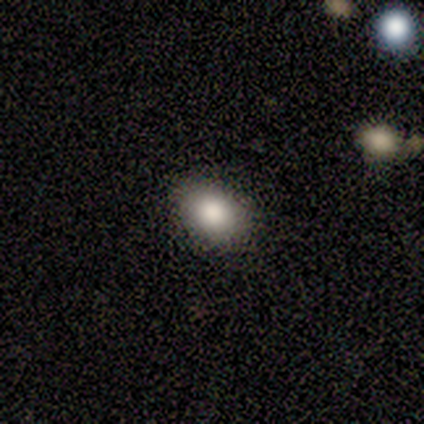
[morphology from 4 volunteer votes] Q: Smooth or featured?
A: smooth (75%); runner-up: star or artifact (25%)
Q: How rounded?
A: in between (100%)
Q: Merging?
A: none (100%)